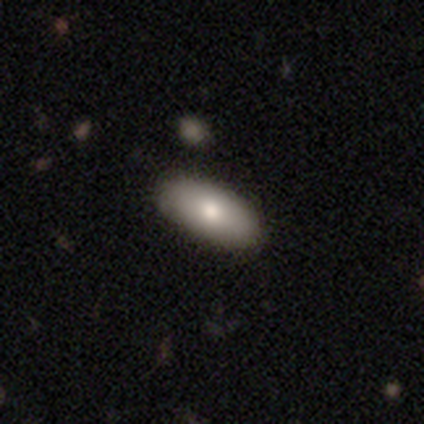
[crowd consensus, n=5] Smooth or featured? 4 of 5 (80%) said smooth. How rounded? 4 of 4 (100%) said in between. Merging? 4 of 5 (80%) said none.